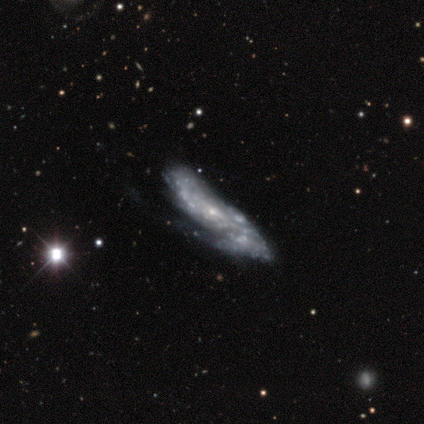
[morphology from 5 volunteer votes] A featured or disk galaxy (100%) with no bar (100%), 2 (50%, tied with more than 4) tight (50%, tied with medium) spiral arms (50%, tied with no) and a small central bulge (100%). Merging: none (80%).